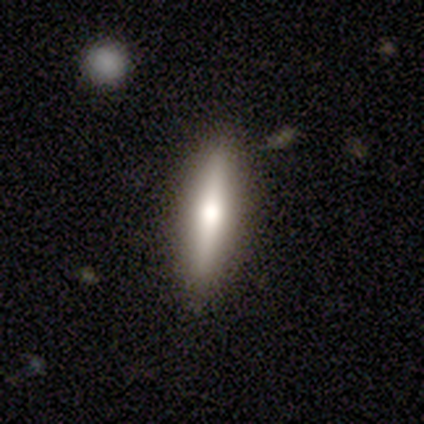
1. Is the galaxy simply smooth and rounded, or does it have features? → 60% smooth, 40% featured or disk, 0% star or artifact.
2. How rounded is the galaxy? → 67% cigar-shaped, 33% in between, 0% round.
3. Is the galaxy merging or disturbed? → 80% none, 20% minor disturbance, 0% major disturbance, 0% merger.